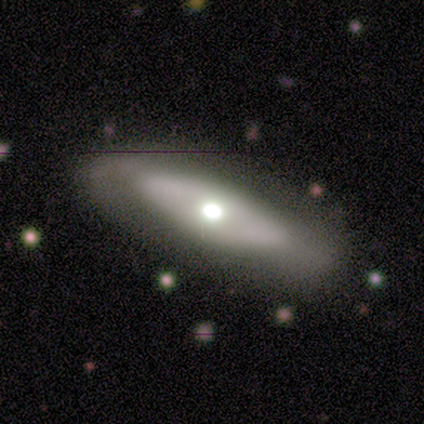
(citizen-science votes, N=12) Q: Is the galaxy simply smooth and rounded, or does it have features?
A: featured or disk — 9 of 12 (75%).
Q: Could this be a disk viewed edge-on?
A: yes — 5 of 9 (56%).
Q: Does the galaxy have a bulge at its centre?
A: rounded — 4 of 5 (80%).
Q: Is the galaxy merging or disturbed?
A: none — 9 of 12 (75%).